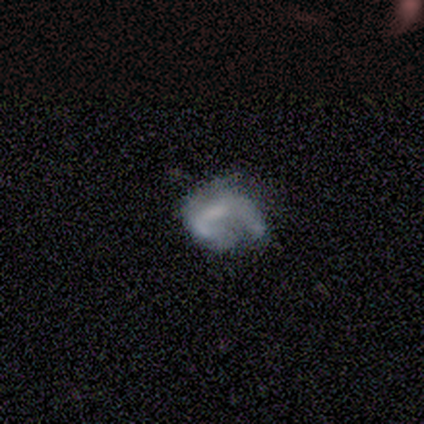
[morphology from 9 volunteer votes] Volunteers were most divided on "merging": major disturbance: 44%, none: 33%, minor disturbance: 22%, merger: 0%. More confident: how rounded — in between (60%); smooth or featured — smooth (56%).